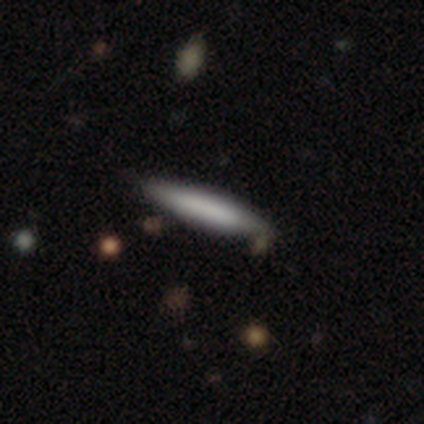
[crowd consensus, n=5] Smooth or featured? 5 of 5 (100%) said smooth. How rounded? 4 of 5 (80%) said cigar-shaped. Merging? 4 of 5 (80%) said none.